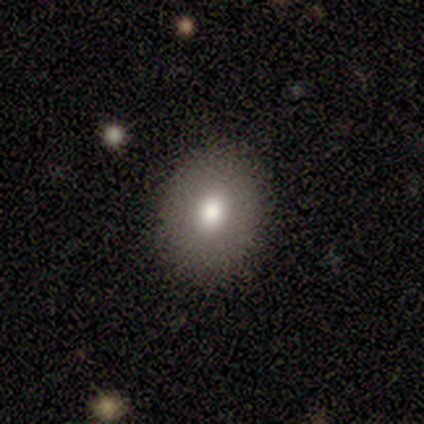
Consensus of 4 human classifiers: Morphology: type=smooth (50%); roundness=round (50%, tied with in between); merging=none (100%).